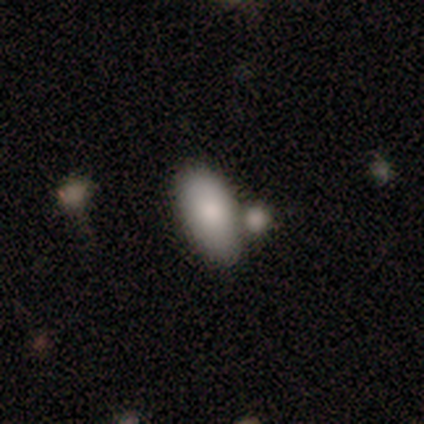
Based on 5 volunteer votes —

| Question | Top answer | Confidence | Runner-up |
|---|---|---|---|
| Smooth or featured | smooth | 100% | — |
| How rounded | in between | 100% | — |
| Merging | none | 40% | tied: merger (40%) |